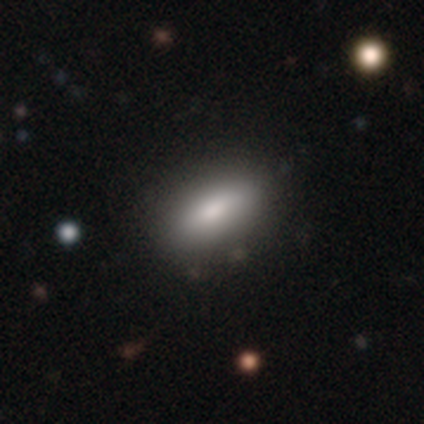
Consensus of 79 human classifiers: Morphology: type=smooth (82%); roundness=in between (80%); merging=none (42%).